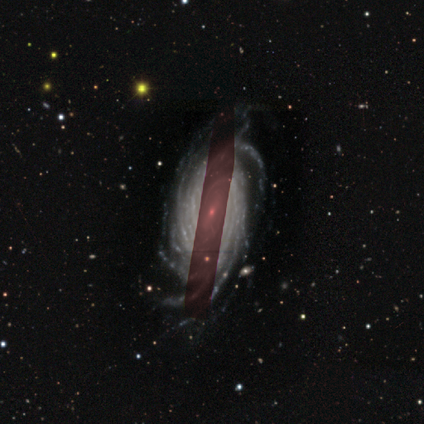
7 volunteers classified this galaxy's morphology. Q: Smooth or featured?
A: featured or disk (86%); runner-up: star or artifact (14%)
Q: Edge-on disk?
A: no (100%)
Q: Bar?
A: weak (50%); runner-up: no (33%)
Q: Spiral arms?
A: yes (100%)
Q: Spiral winding?
A: tight (67%); runner-up: medium (33%)
Q: Spiral arm count?
A: more than 4 (100%)
Q: Bulge size?
A: small (83%); runner-up: none (17%)
Q: Merging?
A: none (67%); runner-up: minor disturbance (33%)